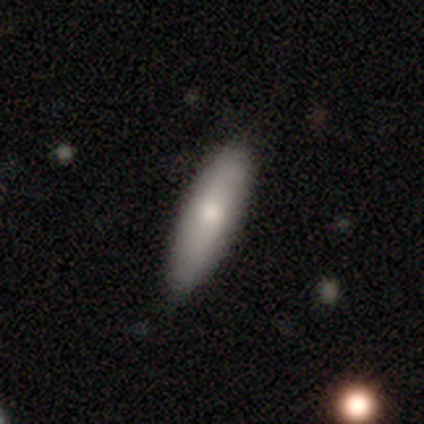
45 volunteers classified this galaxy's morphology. Smooth or featured? 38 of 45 (84%) said smooth. How rounded? 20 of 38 (53%) said cigar-shaped. Merging? 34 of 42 (81%) said none.